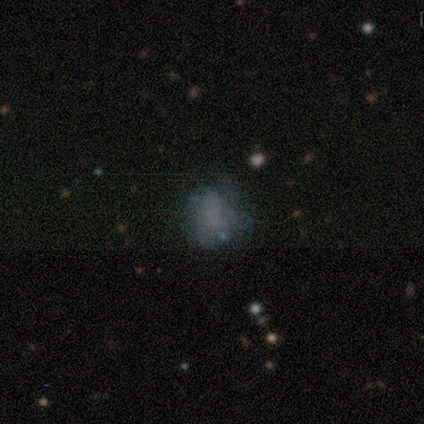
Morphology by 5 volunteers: Smooth or featured? 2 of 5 (40%, tied with star or artifact) said smooth. How rounded? 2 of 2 (100%) said in between. Merging? 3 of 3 (100%) said minor disturbance.